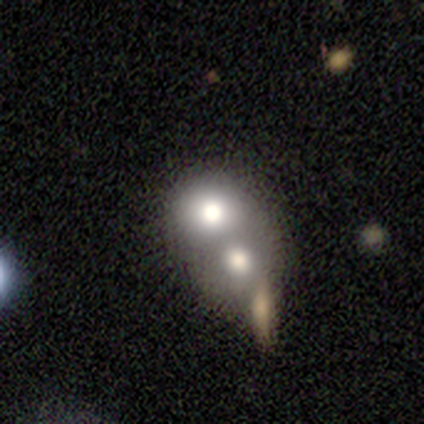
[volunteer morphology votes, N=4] Volunteers were most divided on "smooth or featured": star or artifact: 50%, smooth: 25%, featured or disk: 25%.